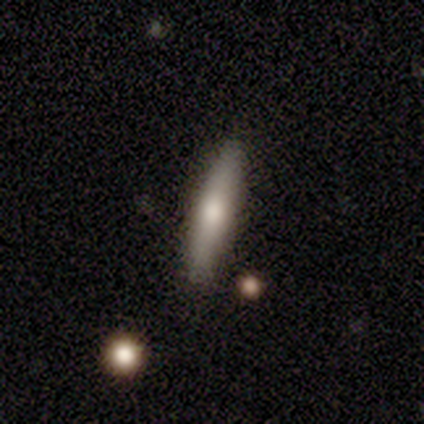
Q: Smooth or featured?
A: smooth (80%); runner-up: featured or disk (20%)
Q: How rounded?
A: cigar-shaped (100%)
Q: Merging?
A: none (60%); runner-up: minor disturbance (20%)